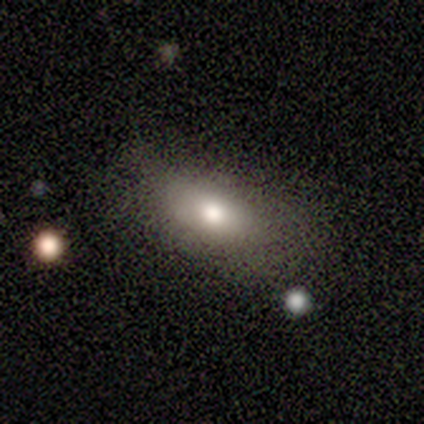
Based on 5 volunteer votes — Smooth or featured? 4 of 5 (80%) said smooth. How rounded? 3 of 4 (75%) said in between. Merging? 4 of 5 (80%) said none.